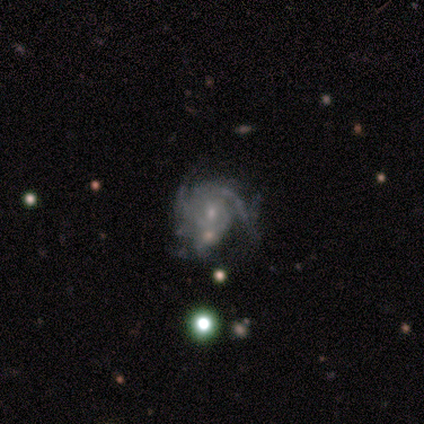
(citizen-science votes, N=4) Volunteers were most divided on "merging" (4-way tie): none: 25%, minor disturbance: 25%, major disturbance: 25%, merger: 25%. More confident: smooth or featured — featured or disk (100%); edge-on disk — no (100%); bar — no (100%); spiral arms — yes (100%); spiral winding — tight (75%); spiral arm count — can't tell (75%); bulge size — moderate (50%).